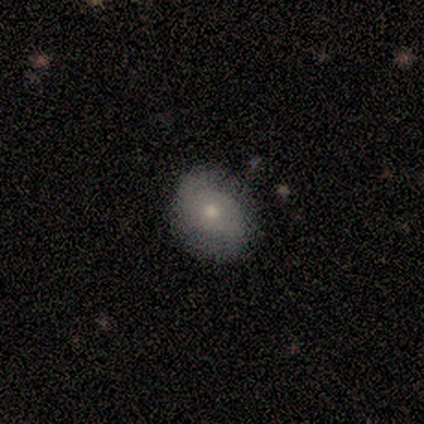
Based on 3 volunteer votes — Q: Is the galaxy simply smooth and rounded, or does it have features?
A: smooth — 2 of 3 (67%).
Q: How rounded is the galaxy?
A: round — 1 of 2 (50%, tied with in between).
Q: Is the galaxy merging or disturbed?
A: minor disturbance — 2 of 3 (67%).